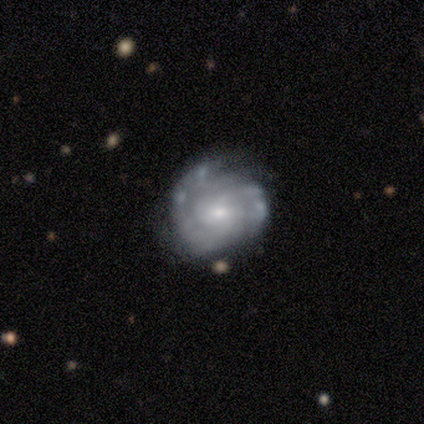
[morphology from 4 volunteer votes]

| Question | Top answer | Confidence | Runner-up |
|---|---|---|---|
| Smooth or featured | featured or disk | 100% | — |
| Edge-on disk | no | 100% | — |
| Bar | no | 75% | weak (25%) |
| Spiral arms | yes | 75% | no (25%) |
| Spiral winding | tight | 67% | medium (33%) |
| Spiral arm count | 2 | 67% | can't tell (33%) |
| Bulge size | small | 100% | — |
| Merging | none | 50% | minor disturbance (25%) |